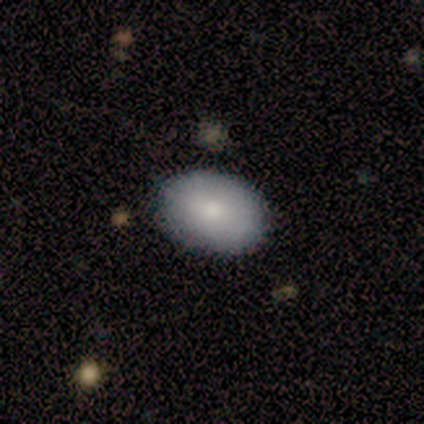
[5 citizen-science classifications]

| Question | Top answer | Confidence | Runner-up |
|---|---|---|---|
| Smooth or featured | smooth | 80% | featured or disk (20%) |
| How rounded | in between | 100% | — |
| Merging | none | 80% | minor disturbance (20%) |